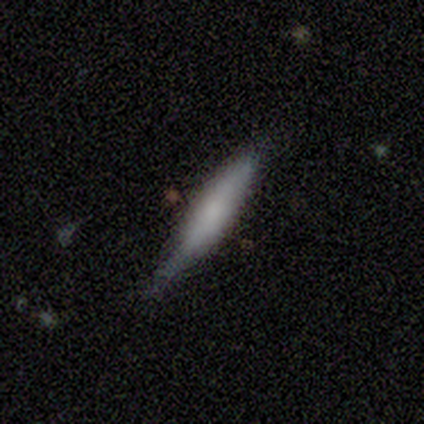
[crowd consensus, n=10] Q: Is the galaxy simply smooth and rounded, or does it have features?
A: smooth — 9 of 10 (90%).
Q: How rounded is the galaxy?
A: cigar-shaped — 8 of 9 (89%).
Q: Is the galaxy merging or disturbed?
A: none — 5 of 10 (50%).